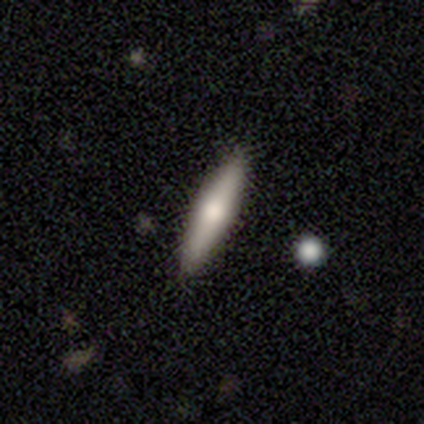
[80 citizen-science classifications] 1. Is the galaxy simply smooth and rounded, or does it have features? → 64% smooth, 32% featured or disk, 4% star or artifact.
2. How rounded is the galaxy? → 86% cigar-shaped, 14% in between, 0% round.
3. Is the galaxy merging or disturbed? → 51% none, 4% minor disturbance, 4% merger, 1% major disturbance.